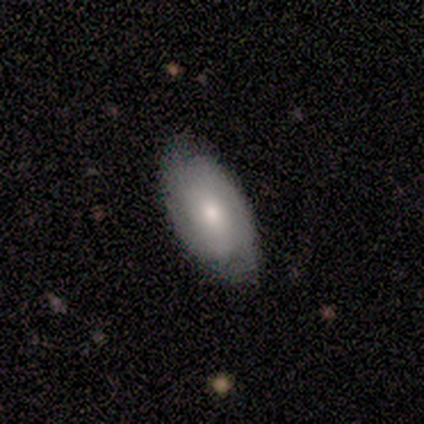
This is clearly a smooth galaxy (100%). How rounded: clearly in between (100%). Merging: likely none (75%).